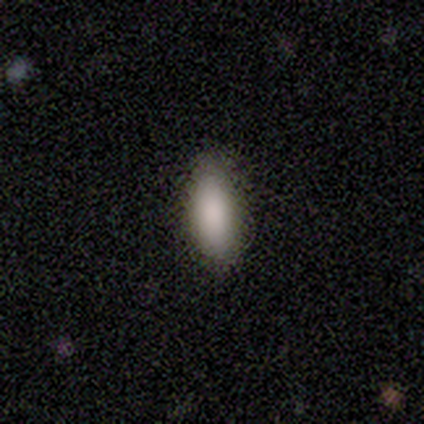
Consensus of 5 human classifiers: This is clearly a smooth galaxy (80%). How rounded: clearly in between (100%). Merging: likely none (75%).